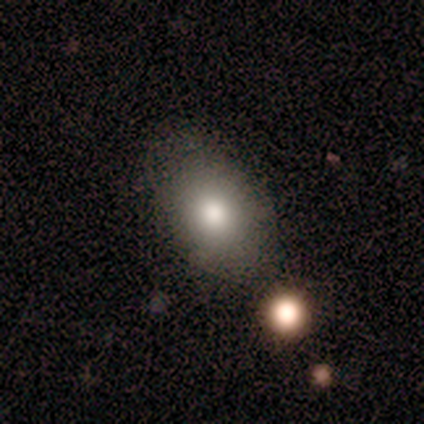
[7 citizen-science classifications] smooth-or-featured: smooth: 86% | star or artifact: 14% | featured or disk: 0%
  how-rounded: in between: 83% | round: 17% | cigar-shaped: 0%
  merging: none: 33% (tied) | minor disturbance: 33% (tied) | merger: 33% (tied) | major disturbance: 0%